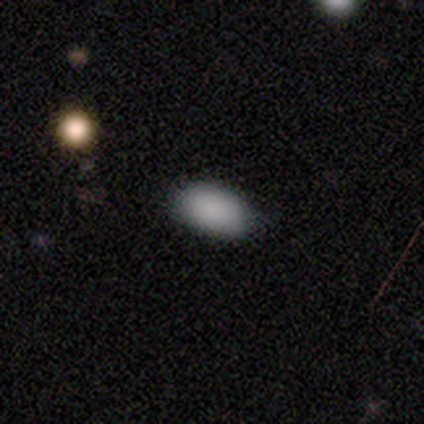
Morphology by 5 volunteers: smooth 100%, featured or disk 0%, star or artifact 0%. Down the decision tree: how rounded — in between (100%); merging — none (100%).